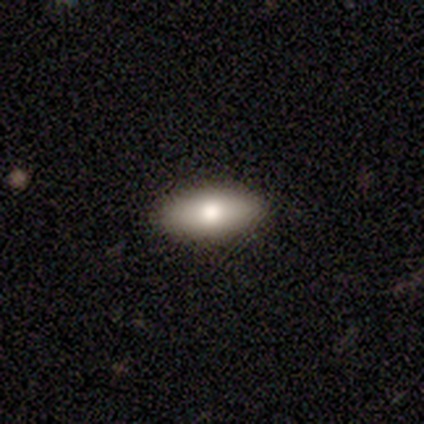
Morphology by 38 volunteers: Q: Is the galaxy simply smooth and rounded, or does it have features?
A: smooth — 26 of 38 (68%).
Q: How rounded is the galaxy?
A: in between — 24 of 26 (92%).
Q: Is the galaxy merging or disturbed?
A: none — 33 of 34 (97%).